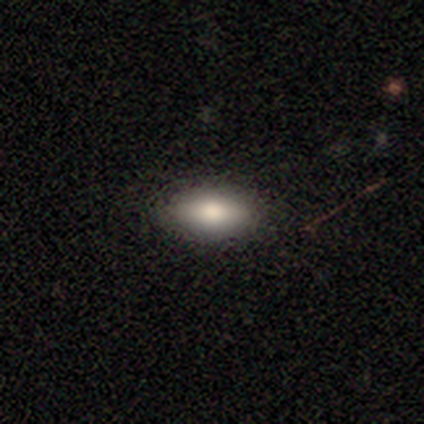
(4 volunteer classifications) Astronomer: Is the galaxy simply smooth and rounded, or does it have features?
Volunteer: smooth — 100%.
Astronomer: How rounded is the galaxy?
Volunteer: in between — 100%.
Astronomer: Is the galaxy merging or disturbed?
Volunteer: none — 75%.